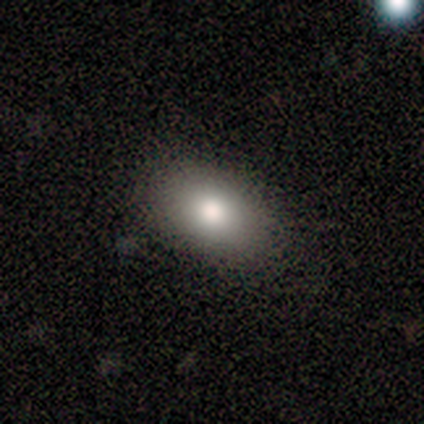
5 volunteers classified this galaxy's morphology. Smooth or featured?
  - smooth: 60% *
  - featured or disk: 40%
  - star or artifact: 0%
How rounded?
  - in between: 100% *
  - round: 0%
  - cigar-shaped: 0%
Merging?
  - none: 100% *
  - minor disturbance: 0%
  - major disturbance: 0%
  - merger: 0%